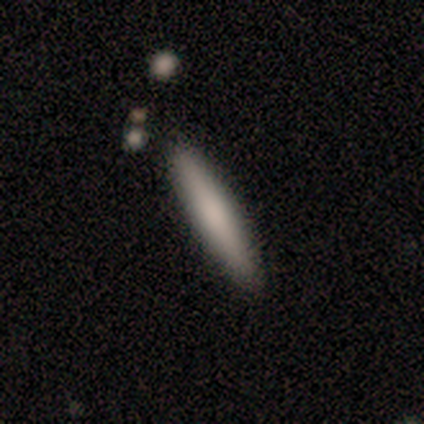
Overall: smooth (80%). How rounded: cigar-shaped (100%). Merging: none (80%).